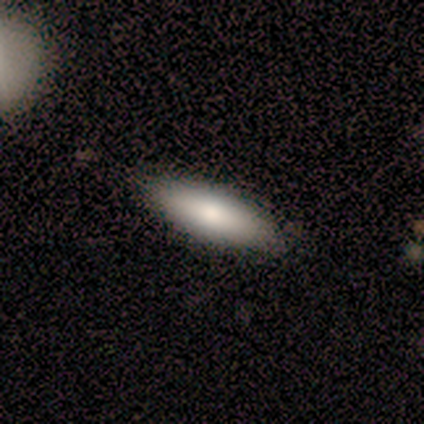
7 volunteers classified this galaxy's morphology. Smooth or featured? smooth (100%)
How rounded? cigar-shaped (57%)
Merging? none (100%)